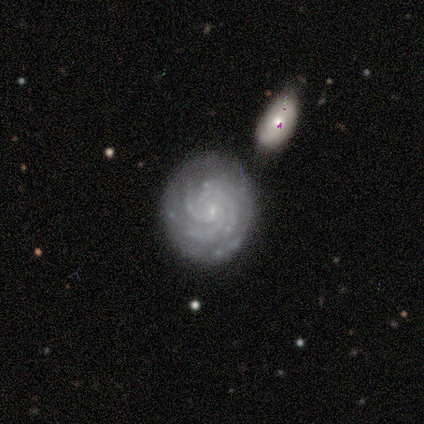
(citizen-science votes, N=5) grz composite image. It shows a featured or disk galaxy (100%) with no bar (60%), more than 4 (40%, tied with can't tell) tight (100%) spiral arms (100%) and a small central bulge (100%). Merging: none (80%).